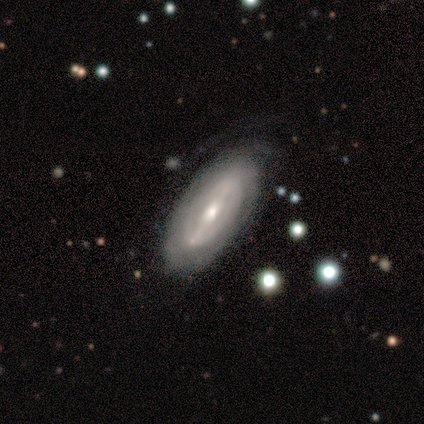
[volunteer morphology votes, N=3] Smooth or featured?
  - featured or disk: 67% *
  - smooth: 33%
  - star or artifact: 0%
Edge-on disk?
  - no: 100% *
  - yes: 0%
Bar?
  - strong: 50% * (tied)
  - weak: 50% * (tied)
  - no: 0%
Spiral arms?
  - yes: 50% * (tied)
  - no: 50% * (tied)
Spiral winding?
  - tight: 100% *
  - medium: 0%
  - loose: 0%
Spiral arm count?
  - can't tell: 100% *
  - 1: 0%
  - 2: 0%
  - 3: 0%
  - 4: 0%
  - more than 4: 0%
Bulge size?
  - moderate: 50% * (tied)
  - small: 50% * (tied)
  - dominant: 0%
  - large: 0%
  - none: 0%
Merging?
  - none: 100% *
  - minor disturbance: 0%
  - major disturbance: 0%
  - merger: 0%